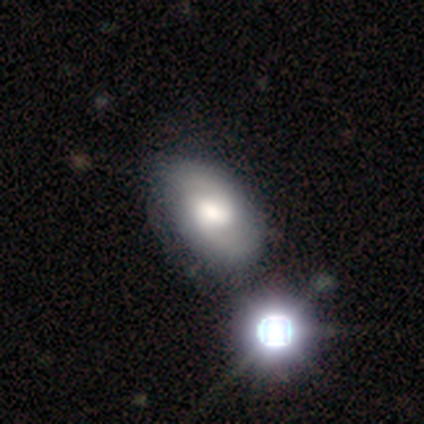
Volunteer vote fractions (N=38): featured or disk 55%, smooth 34%, star or artifact 11%. Down the decision tree: edge-on disk — no (90%); bar — no (58%); spiral arms — yes (74%); spiral arm count — 2 (79%); spiral winding — tight (36%, tied with medium); bulge size — moderate (53%); merging — none (29%).